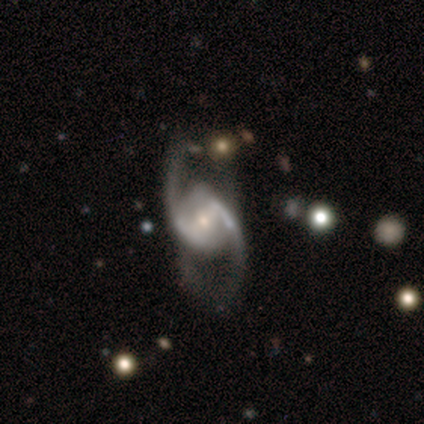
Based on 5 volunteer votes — This appears to be a featured or disk galaxy (100%) with a strong bar (40%, tied with no), 2 (100%) loose (60%) spiral arms (100%) and a moderate central bulge (60%). Merging: none (100%).